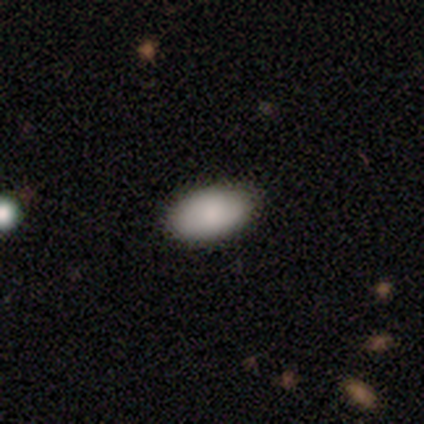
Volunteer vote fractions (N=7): Smooth or featured? smooth (71%)
How rounded? in between (100%)
Merging? none (100%)